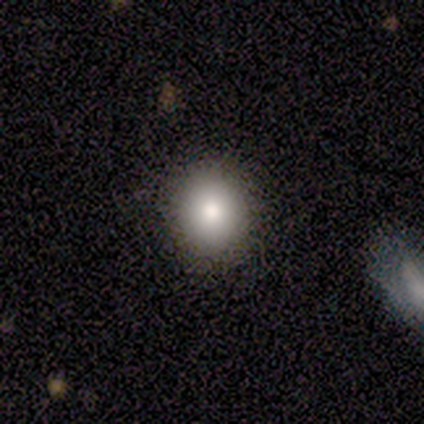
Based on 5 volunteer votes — Morphology: type=smooth (80%); roundness=in between (100%); merging=none (100%).